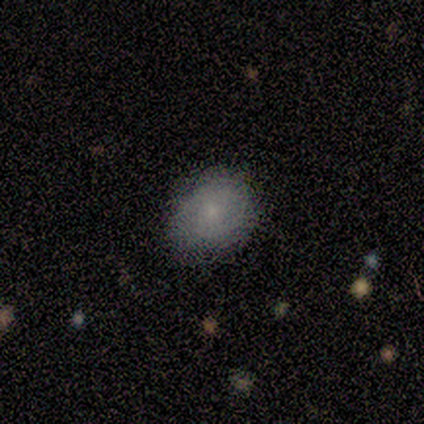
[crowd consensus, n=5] Overall: smooth (40%, tied with star or artifact). How rounded: round (50%, tied with in between). Merging: none (100%).